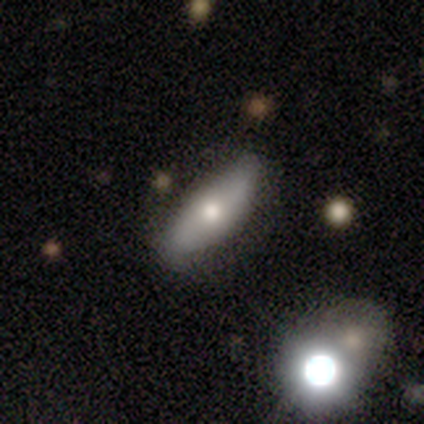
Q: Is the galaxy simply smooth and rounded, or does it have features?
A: smooth — 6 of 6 (100%).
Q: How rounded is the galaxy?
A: in between — 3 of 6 (50%).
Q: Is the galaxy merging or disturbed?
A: none — 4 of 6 (67%).